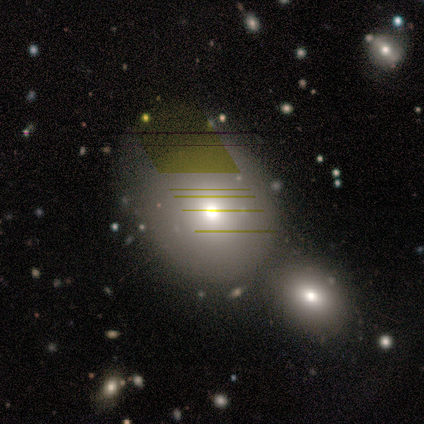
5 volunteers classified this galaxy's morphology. A smooth galaxy with no disk features (80%) that is round (100%).

Vote fractions:
- Smooth or featured? smooth: 80% / featured or disk: 20% / star or artifact: 0%
- How rounded? round: 100% / in between: 0% / cigar-shaped: 0%
- Merging? minor disturbance: 40% / none: 20% / major disturbance: 20% / merger: 20%